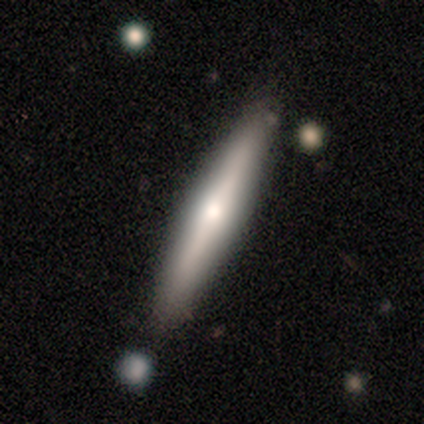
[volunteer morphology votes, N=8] smooth-or-featured: smooth: 62% | featured or disk: 38% | star or artifact: 0%
  how-rounded: cigar-shaped: 100% | round: 0% | in between: 0%
  merging: none: 88% | minor disturbance: 12% | major disturbance: 0% | merger: 0%